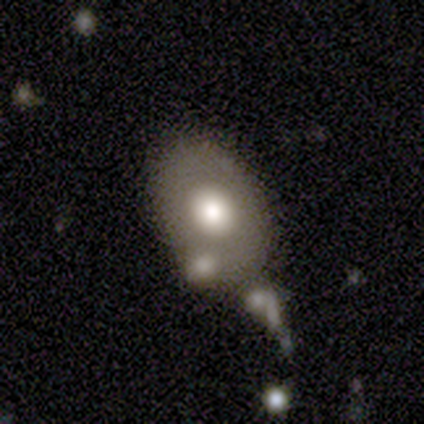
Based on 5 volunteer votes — A smooth galaxy with no disk features (80%) that is in between round and cigar-shaped (75%).

Vote fractions:
- Smooth or featured? smooth: 80% / star or artifact: 20% / featured or disk: 0%
- How rounded? in between: 75% / round: 25% / cigar-shaped: 0%
- Merging? minor disturbance: 50% / none: 25% / merger: 25% / major disturbance: 0%